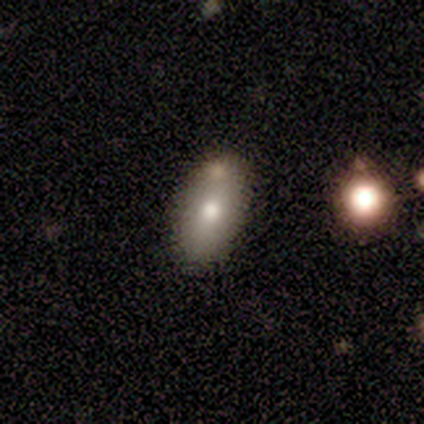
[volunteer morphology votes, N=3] Volunteers were most divided on "how rounded" (2-way tie): round: 50%, in between: 50%, cigar-shaped: 0%. More confident: smooth or featured — smooth (67%); merging — none (67%).